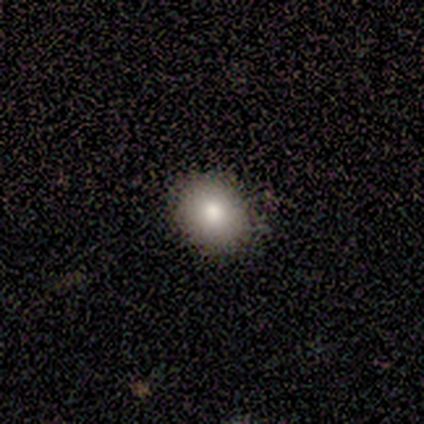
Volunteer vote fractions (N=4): smooth 100%, featured or disk 0%, star or artifact 0%. Down the decision tree: how rounded — round (50%, tied with in between); merging — none (100%).